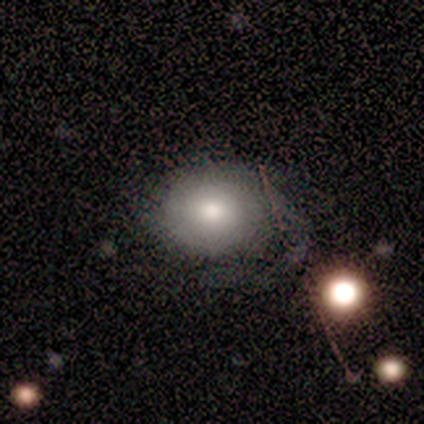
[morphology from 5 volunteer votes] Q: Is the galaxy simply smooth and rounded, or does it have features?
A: smooth — 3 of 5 (60%).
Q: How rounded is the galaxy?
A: round — 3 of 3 (100%).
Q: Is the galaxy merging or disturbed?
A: minor disturbance — 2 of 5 (40%, tied with major disturbance).